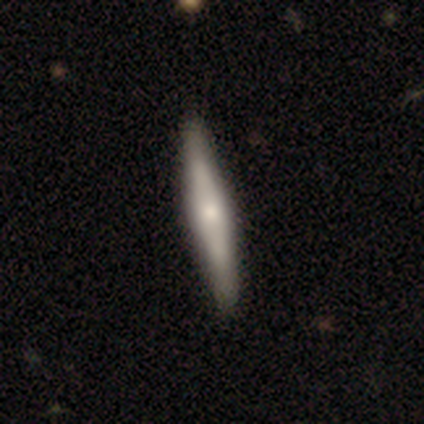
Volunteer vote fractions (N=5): Morphology: type=smooth (60%); roundness=cigar-shaped (67%); merging=none (100%).